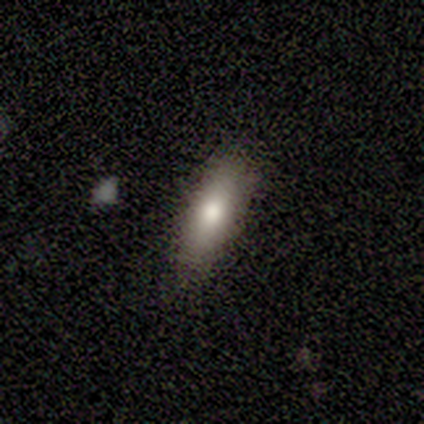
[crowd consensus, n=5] Overall: smooth (60%; featured or disk 20%). How rounded: in between (67%; cigar-shaped 33%). Merging: none (75%).